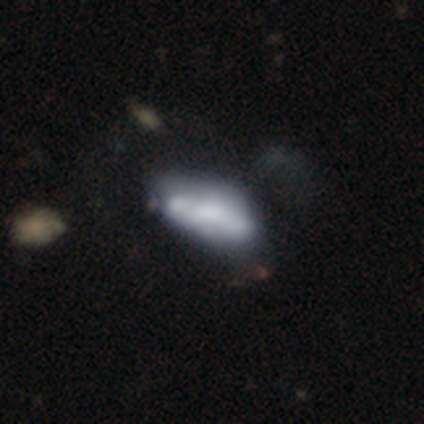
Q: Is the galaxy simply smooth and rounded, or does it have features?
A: featured or disk — 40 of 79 (51%).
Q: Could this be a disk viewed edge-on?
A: no — 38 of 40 (95%).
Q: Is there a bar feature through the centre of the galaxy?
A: no — 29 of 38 (76%).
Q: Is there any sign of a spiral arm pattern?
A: no — 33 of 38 (87%).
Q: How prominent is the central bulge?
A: none — 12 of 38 (32%).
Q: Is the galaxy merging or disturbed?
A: merger — 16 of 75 (21%).